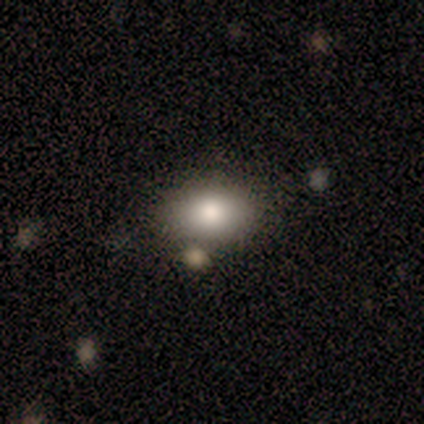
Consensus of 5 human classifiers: smooth 100%, featured or disk 0%, star or artifact 0%. Down the decision tree: how rounded — round (60%); merging — none (80%).